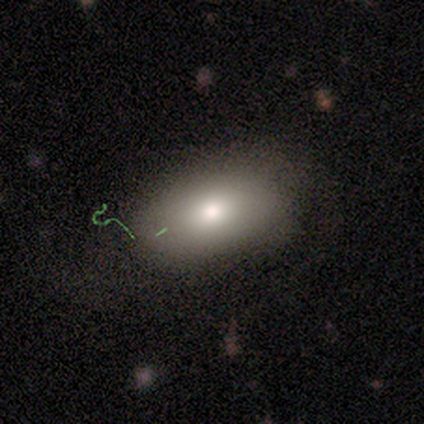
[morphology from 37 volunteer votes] type=smooth (65%); roundness=in between (88%); merging=none (74%).